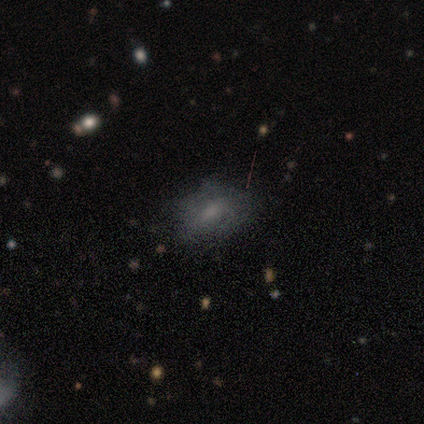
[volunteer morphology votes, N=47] Overall: smooth (66%). How rounded: in between (84%). Merging: none (65%).